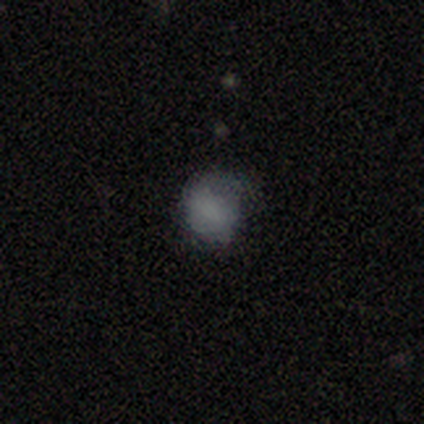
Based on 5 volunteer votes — Smooth or featured? smooth (60%)
How rounded? round (67%)
Merging? none (100%)